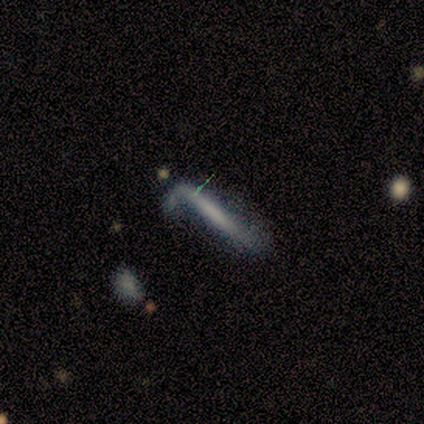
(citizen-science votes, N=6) smooth_or_featured: smooth (p=0.50) [tied with: featured or disk p=0.50]
how_rounded: cigar-shaped (p=1.00)
merging: none (p=0.33) [tied with: minor disturbance p=0.33, major disturbance p=0.33]